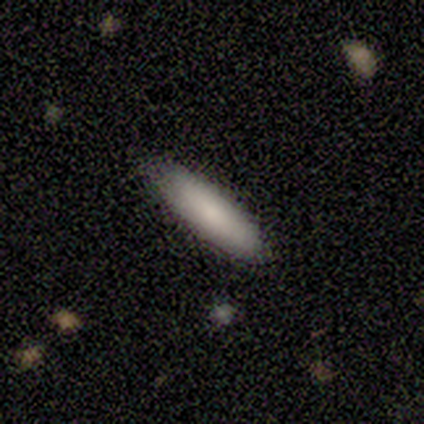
Volunteers were most divided on "how rounded": cigar-shaped: 67%, in between: 33%, round: 0%. More confident: merging — none (93%); smooth or featured — smooth (75%).